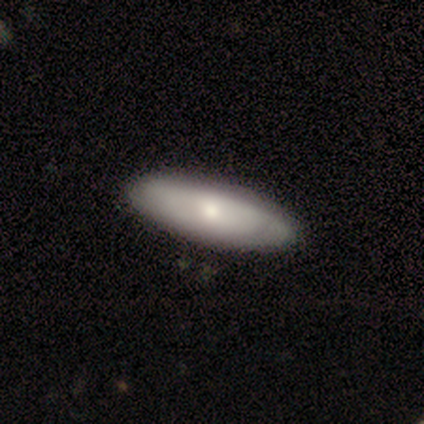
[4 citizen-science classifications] smooth 50% (tied), featured or disk 50% (tied), star or artifact 0%. Down the decision tree: how rounded — in between (50%, tied with cigar-shaped); merging — none (75%).